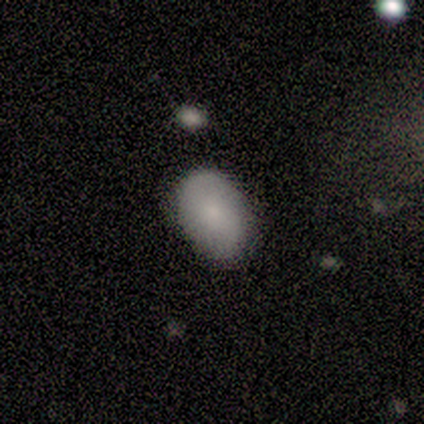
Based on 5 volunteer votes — smooth_or_featured: smooth (p=0.80) [alt: star or artifact p=0.20]
how_rounded: in between (p=1.00)
merging: none (p=0.75) [alt: minor disturbance p=0.25]